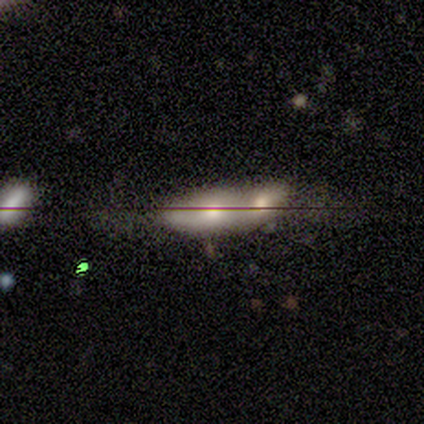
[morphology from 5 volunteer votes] Q: Smooth or featured?
A: smooth (100%)
Q: How rounded?
A: in between (60%); runner-up: round (40%)
Q: Merging?
A: merger (80%); runner-up: minor disturbance (20%)